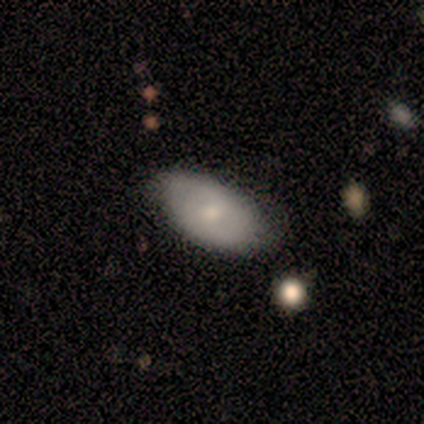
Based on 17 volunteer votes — Overall: smooth (82%). How rounded: in between (100%). Merging: none (82%).